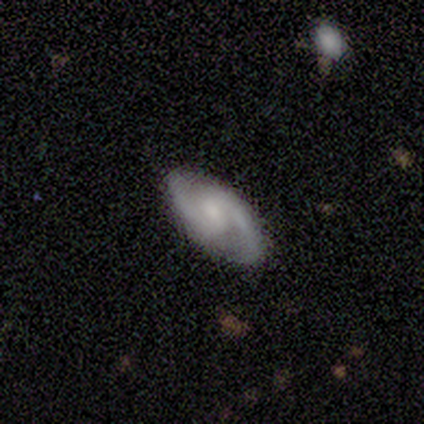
featured or disk 80%, smooth 20%, star or artifact 0%. Down the decision tree: edge-on disk — no (100%); bar — weak (75%); spiral arms — yes (100%); spiral arm count — 2 (100%); spiral winding — medium (50%); bulge size — none (50%); merging — none (60%).